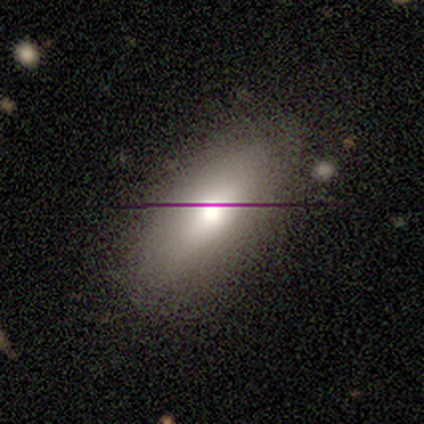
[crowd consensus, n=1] smooth-or-featured: smooth: 100% | featured or disk: 0% | star or artifact: 0%
  how-rounded: in between: 100% | round: 0% | cigar-shaped: 0%
  merging: none: 100% | minor disturbance: 0% | major disturbance: 0% | merger: 0%